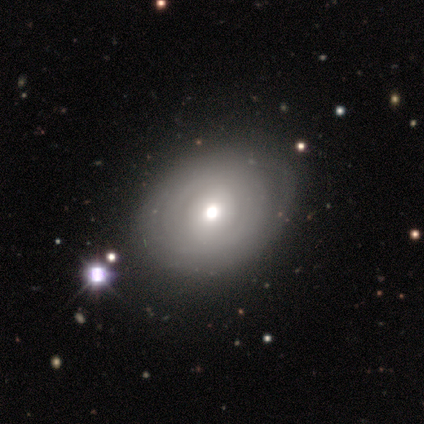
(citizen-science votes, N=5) A smooth galaxy with no disk features (60%) that is in between round and cigar-shaped (67%).

Vote fractions:
- Smooth or featured? smooth: 60% / featured or disk: 40% / star or artifact: 0%
- How rounded? in between: 67% / round: 33% / cigar-shaped: 0%
- Merging? none: 100% / minor disturbance: 0% / major disturbance: 0% / merger: 0%